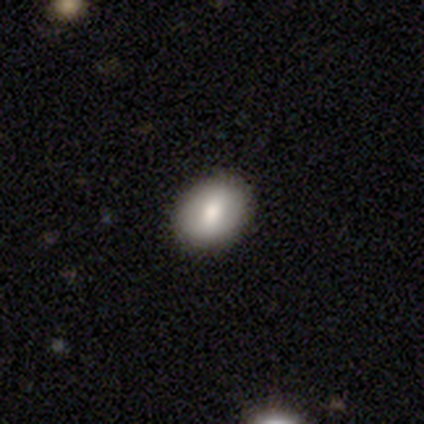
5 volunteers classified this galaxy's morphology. Smooth or featured? smooth (100%)
How rounded? round (60%)
Merging? none (100%)